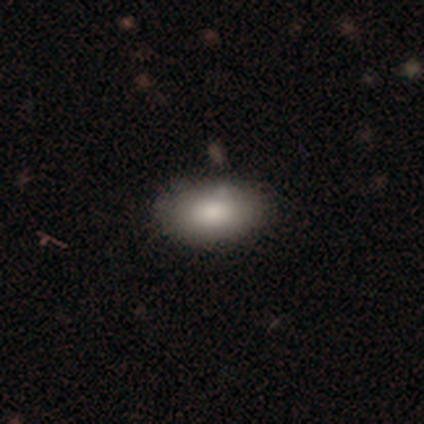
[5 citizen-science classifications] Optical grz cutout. It shows a smooth galaxy with no disk features (100%) that is in between round and cigar-shaped (100%). Merging: none (100%).